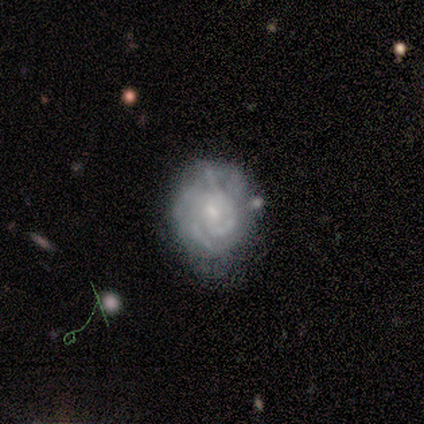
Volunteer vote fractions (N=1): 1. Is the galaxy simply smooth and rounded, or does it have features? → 100% featured or disk, 0% smooth, 0% star or artifact.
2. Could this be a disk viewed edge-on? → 100% no, 0% yes.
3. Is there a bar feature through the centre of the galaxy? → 100% strong, 0% weak, 0% no.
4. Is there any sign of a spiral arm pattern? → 100% no, 0% yes.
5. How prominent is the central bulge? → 100% small, 0% dominant, 0% large, 0% moderate, 0% none.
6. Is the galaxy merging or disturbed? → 100% major disturbance, 0% none, 0% minor disturbance, 0% merger.